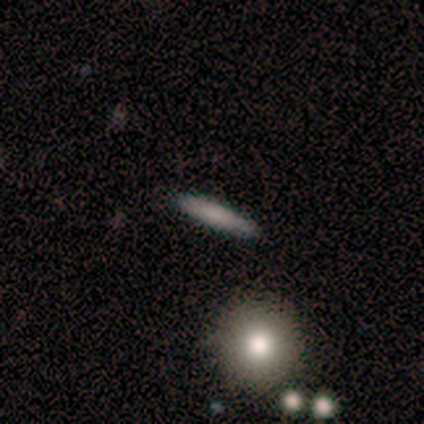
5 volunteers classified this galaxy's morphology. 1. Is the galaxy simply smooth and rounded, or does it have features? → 60% smooth, 40% featured or disk, 0% star or artifact.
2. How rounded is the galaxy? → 100% cigar-shaped, 0% round, 0% in between.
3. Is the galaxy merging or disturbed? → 80% none, 20% minor disturbance, 0% major disturbance, 0% merger.